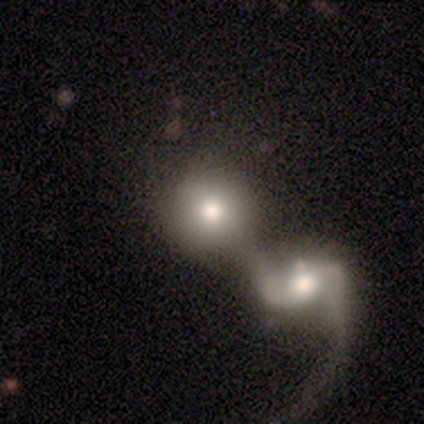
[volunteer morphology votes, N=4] smooth_or_featured: smooth (p=0.75) [alt: featured or disk p=0.25]
how_rounded: round (p=1.00)
merging: merger (p=1.00)